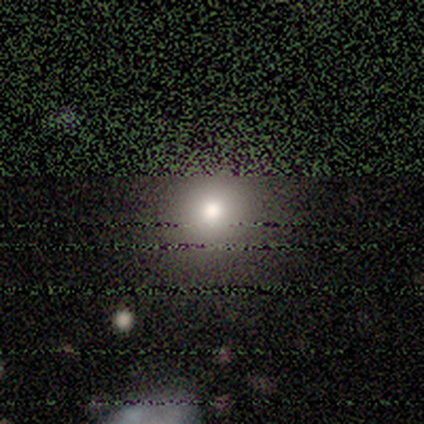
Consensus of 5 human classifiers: Morphology: type=smooth (80%); roundness=round (75%); merging=none (75%).